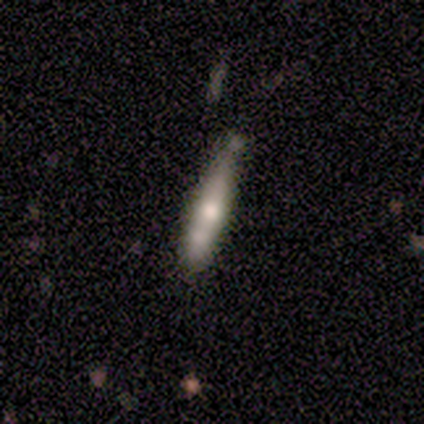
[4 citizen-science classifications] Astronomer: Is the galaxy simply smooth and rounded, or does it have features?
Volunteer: star or artifact — 50%.